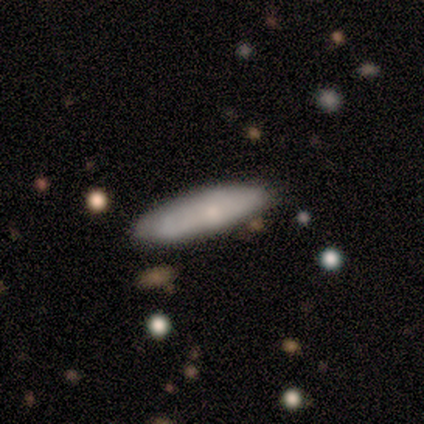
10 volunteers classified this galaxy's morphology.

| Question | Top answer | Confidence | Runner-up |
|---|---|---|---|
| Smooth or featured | smooth | 60% | featured or disk (40%) |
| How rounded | in between | 83% | cigar-shaped (17%) |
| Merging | none | 70% | minor disturbance (30%) |